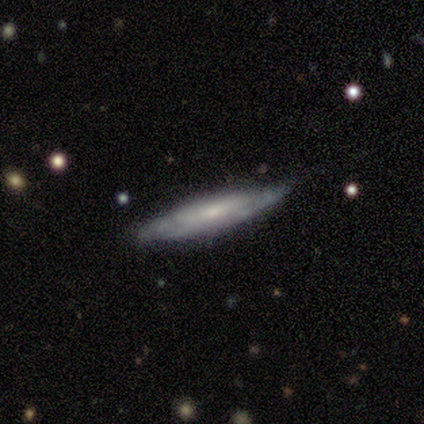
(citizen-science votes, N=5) smooth 60%, featured or disk 40%, star or artifact 0%. Down the decision tree: how rounded — cigar-shaped (100%); merging — none (100%).